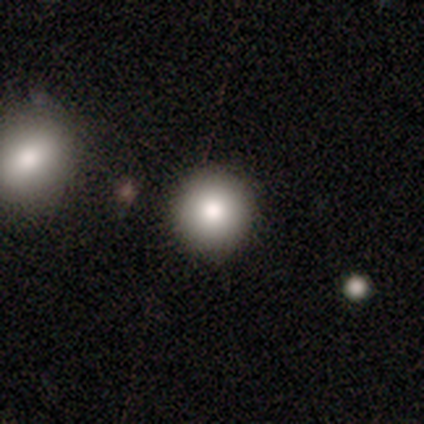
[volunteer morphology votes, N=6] Q: Smooth or featured?
A: smooth (67%); runner-up: star or artifact (33%)
Q: How rounded?
A: round (100%)
Q: Merging?
A: none (100%)